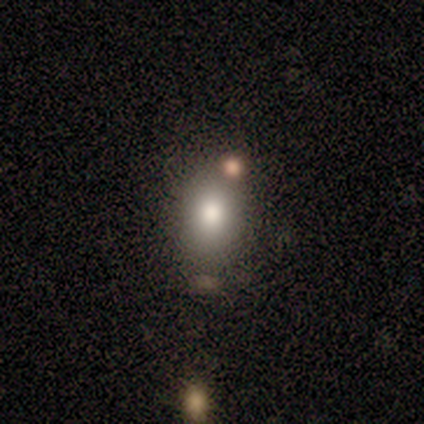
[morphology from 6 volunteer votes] Q: Smooth or featured?
A: smooth (100%)
Q: How rounded?
A: in between (67%); runner-up: round (33%)
Q: Merging?
A: none (83%); runner-up: major disturbance (17%)